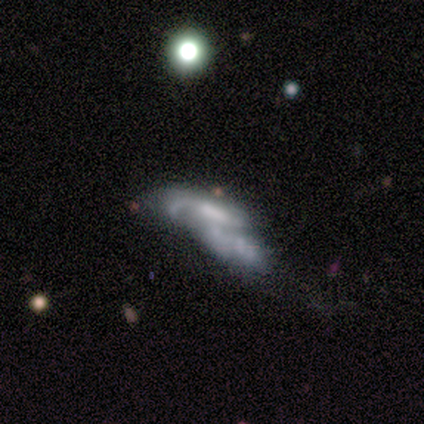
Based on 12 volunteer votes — A featured or disk galaxy (67%) with a weak bar (38%, tied with no), 1 (50%) loose (50%) spiral arms (100%) and a moderate central bulge (38%).

Vote fractions:
- Smooth or featured? featured or disk: 67% / smooth: 25% / star or artifact: 8%
- Edge-on disk? no: 100% / yes: 0%
- Bar? weak: 38% (tied) / no: 38% (tied) / strong: 25%
- Spiral arms? yes: 100% / no: 0%
- Spiral winding? loose: 50% / medium: 38% / tight: 12%
- Spiral arm count? 1: 50% / 3: 25% / 2: 12% / can't tell: 12% / 4: 0% / more than 4: 0%
- Bulge size? moderate: 38% / small: 25% / dominant: 12% / large: 12% / none: 12%
- Merging? merger: 64% / none: 27% / major disturbance: 9% / minor disturbance: 0%